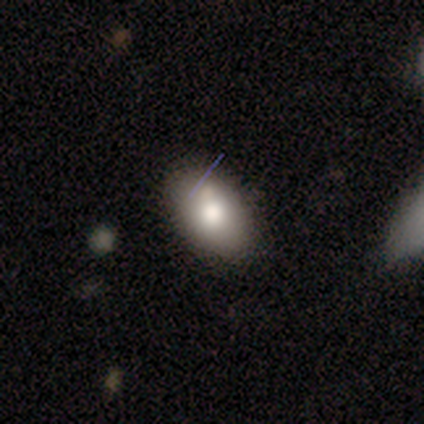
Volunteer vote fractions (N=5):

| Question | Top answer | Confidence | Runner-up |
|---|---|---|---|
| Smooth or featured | smooth | 80% | featured or disk (20%) |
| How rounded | in between | 100% | — |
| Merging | none | 60% | minor disturbance (20%) |